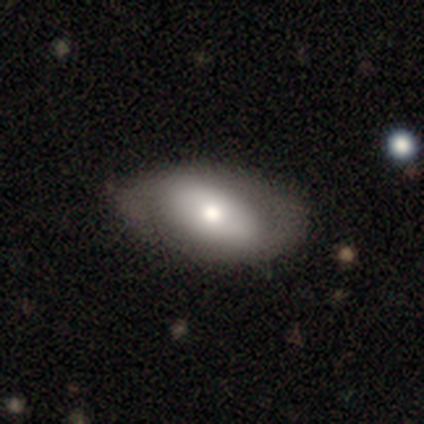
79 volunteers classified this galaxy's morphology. type=smooth (58%); roundness=in between (93%); merging=none (47%).